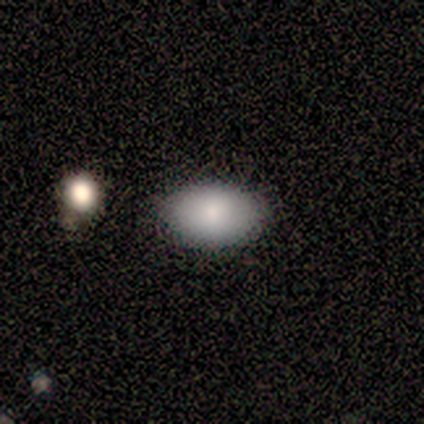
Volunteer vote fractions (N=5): Morphology: type=smooth (80%); roundness=in between (100%); merging=none (100%).